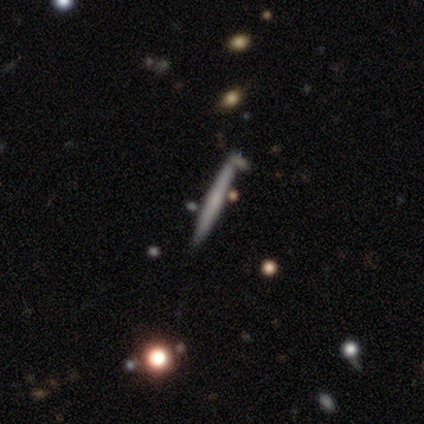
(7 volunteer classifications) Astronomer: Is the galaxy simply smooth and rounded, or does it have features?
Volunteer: smooth — 43%, tied with featured or disk at 43%.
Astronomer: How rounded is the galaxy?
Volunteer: cigar-shaped — 100%.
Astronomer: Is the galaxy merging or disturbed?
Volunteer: none — 83%.